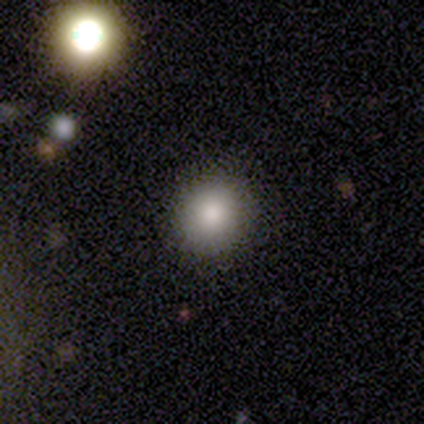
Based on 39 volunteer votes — Overall: smooth (77%). How rounded: round (87%). Merging: none (94%).